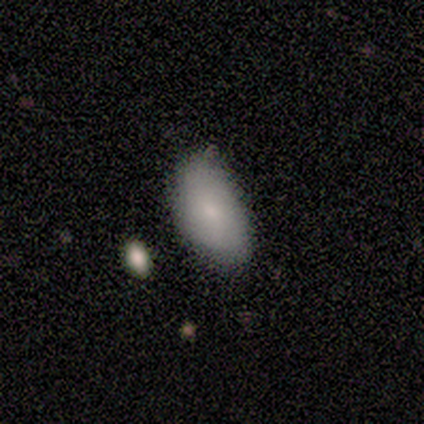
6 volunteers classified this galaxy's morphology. smooth-or-featured: smooth: 100% | featured or disk: 0% | star or artifact: 0%
  how-rounded: in between: 100% | round: 0% | cigar-shaped: 0%
  merging: none: 50% (tied) | minor disturbance: 50% (tied) | major disturbance: 0% | merger: 0%